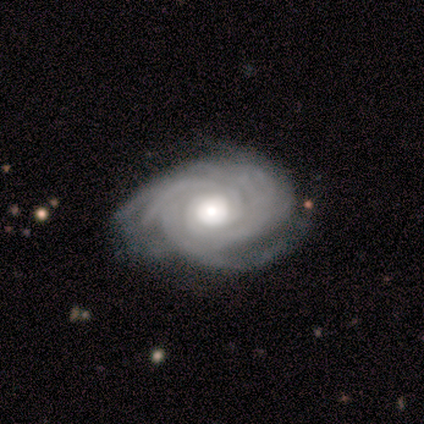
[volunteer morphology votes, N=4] A featured or disk galaxy (100%) with no bar (75%), tight (50%, tied with medium) spiral arms (100%) and a moderate central bulge (50%). Merging: none (75%).